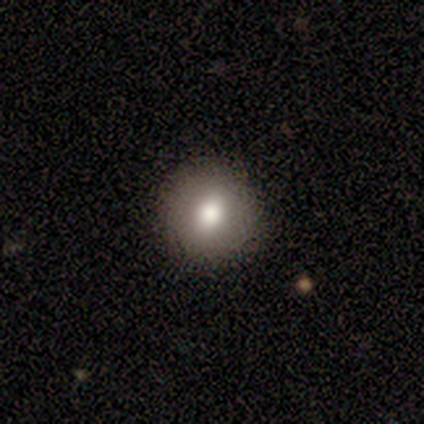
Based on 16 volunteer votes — Smooth or featured? smooth (69%)
How rounded? round (100%)
Merging? none (100%)